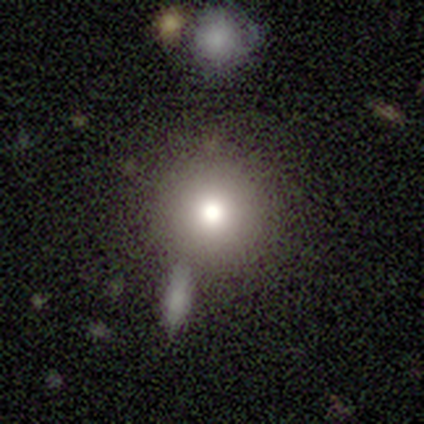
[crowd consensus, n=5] smooth-or-featured: smooth: 60% | featured or disk: 40% | star or artifact: 0%
  how-rounded: round: 67% | in between: 33% | cigar-shaped: 0%
  merging: none: 60% | minor disturbance: 20% | merger: 20% | major disturbance: 0%